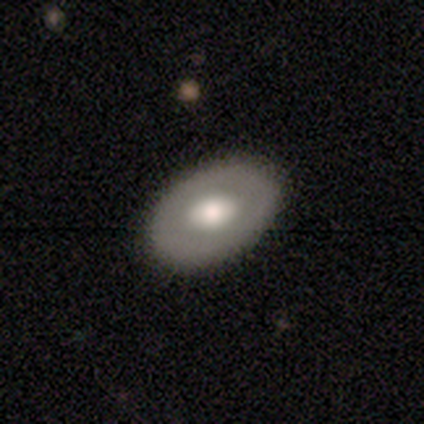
Morphology: type=featured or disk (75%); edge-on=no (67%); bar=weak (50%, tied with no); spiral arms=no (100%); bulge=moderate (100%); merging=none (100%).